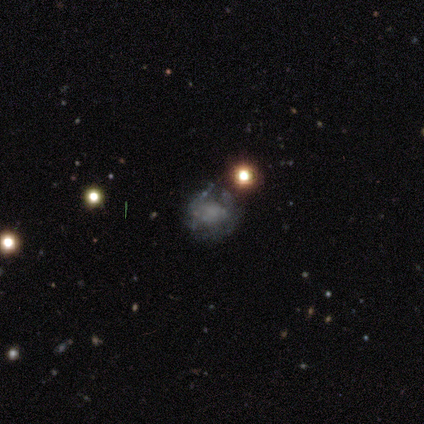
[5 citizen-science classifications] Q: Smooth or featured?
A: featured or disk (60%); runner-up: smooth (20%)
Q: Edge-on disk?
A: no (100%)
Q: Bar?
A: no (67%); runner-up: strong (33%)
Q: Spiral arms?
A: no (100%)
Q: Bulge size?
A: large (33%); tied with: small (33%); none (33%)
Q: Merging?
A: major disturbance (50%); runner-up: none (25%)